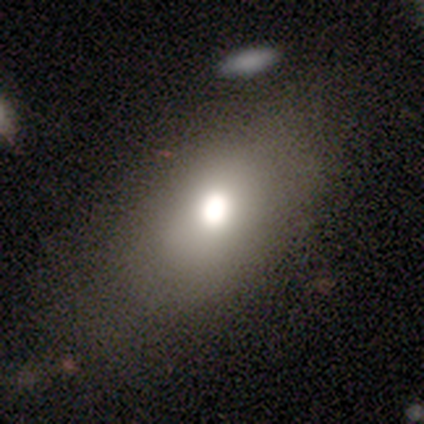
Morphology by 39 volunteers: Q: Smooth or featured?
A: smooth (59%); runner-up: featured or disk (21%)
Q: How rounded?
A: in between (78%); runner-up: round (22%)
Q: Merging?
A: none (81%); runner-up: minor disturbance (10%)